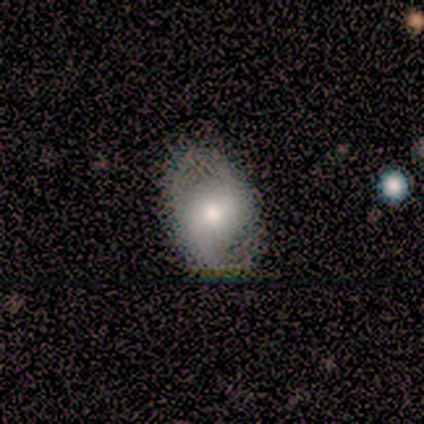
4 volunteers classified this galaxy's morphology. This is possibly a smooth galaxy (50%, tied with featured or disk). How rounded: clearly in between (100%). Merging: likely none (75%).